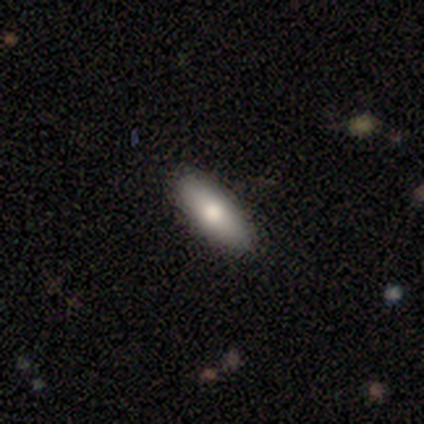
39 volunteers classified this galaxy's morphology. Smooth or featured? smooth (59%)
How rounded? in between (52%)
Merging? none (88%)